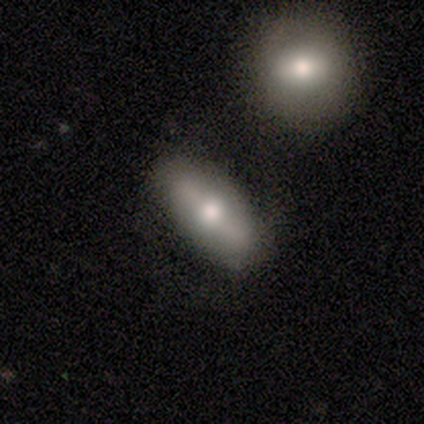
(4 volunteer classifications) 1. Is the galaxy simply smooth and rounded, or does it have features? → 50% smooth (tied), 50% featured or disk (tied), 0% star or artifact.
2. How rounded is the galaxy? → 50% in between (tied), 50% cigar-shaped (tied), 0% round.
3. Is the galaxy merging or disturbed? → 100% none, 0% minor disturbance, 0% major disturbance, 0% merger.